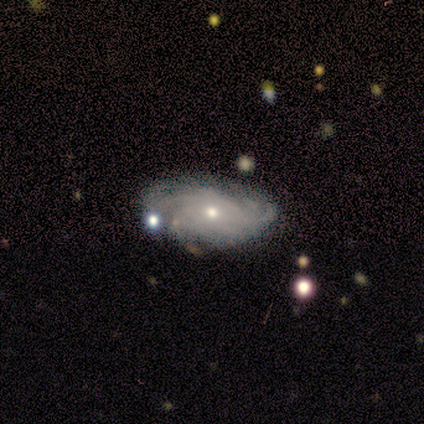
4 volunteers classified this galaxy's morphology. Overall: featured or disk (75%). Edge-on disk: no (67%; yes 33%). Bar: no (100%). Spiral arms: yes (100%). Spiral arm count: more than 4 (50%, tied with can't tell). Spiral winding: tight (50%, tied with loose). Bulge size: small (100%). Merging: none (50%; minor disturbance 25%).